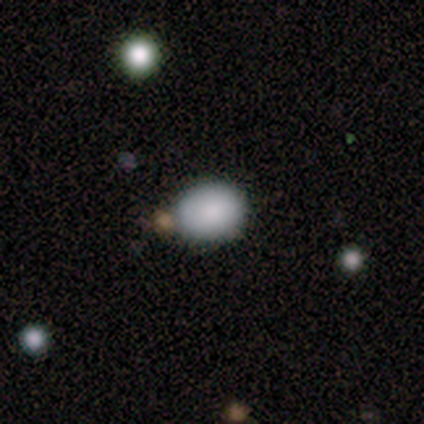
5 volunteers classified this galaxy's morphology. Smooth or featured: smooth — 100%
How rounded: round — 60% (in between — 40%)
Merging: none — 100%